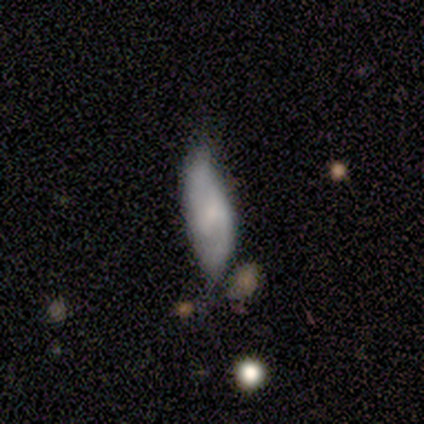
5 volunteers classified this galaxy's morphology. smooth_or_featured: featured or disk (p=0.80) [alt: smooth p=0.20]
disk_edge_on: no (p=1.00)
bar: weak (p=0.50) [tied with: no p=0.50]
has_spiral_arms: yes (p=0.75) [alt: no p=0.25]
spiral_winding: medium (p=1.00)
spiral_arm_count: 2 (p=0.67) [alt: can't tell p=0.33]
bulge_size: small (p=0.50) [alt: moderate p=0.25]
merging: minor disturbance (p=0.60) [alt: none p=0.20]